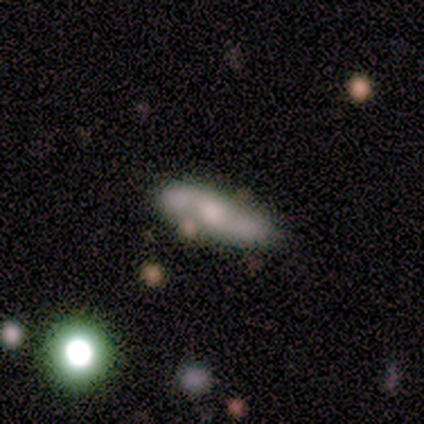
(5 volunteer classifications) Volunteers were most divided on "smooth or featured": featured or disk: 60%, star or artifact: 40%, smooth: 0%. More confident: edge-on disk — yes (100%); edge-on bulge — rounded (100%); merging — none (100%).